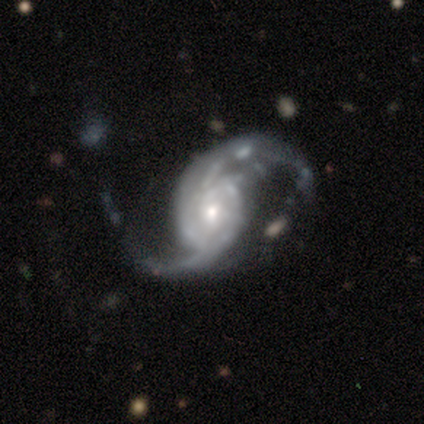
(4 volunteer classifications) smooth_or_featured: featured or disk (p=1.00)
disk_edge_on: no (p=1.00)
bar: no (p=1.00)
has_spiral_arms: yes (p=1.00)
spiral_winding: medium (p=0.75) [alt: loose p=0.25]
spiral_arm_count: 2 (p=1.00)
bulge_size: moderate (p=0.50) [tied with: small p=0.50]
merging: minor disturbance (p=0.50) [alt: major disturbance p=0.25]